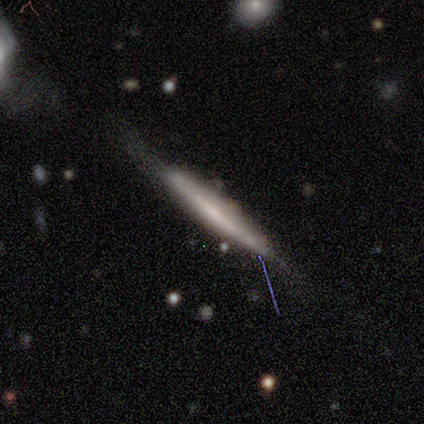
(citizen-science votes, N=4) Smooth or featured? 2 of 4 (50%) said smooth. How rounded? 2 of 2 (100%) said cigar-shaped. Merging? 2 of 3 (67%) said none.